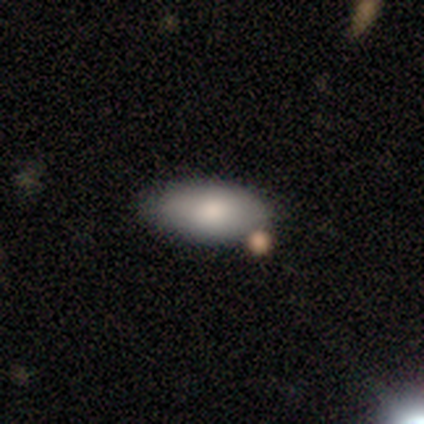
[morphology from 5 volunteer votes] Smooth or featured? smooth (80%)
How rounded? in between (100%)
Merging? none (100%)